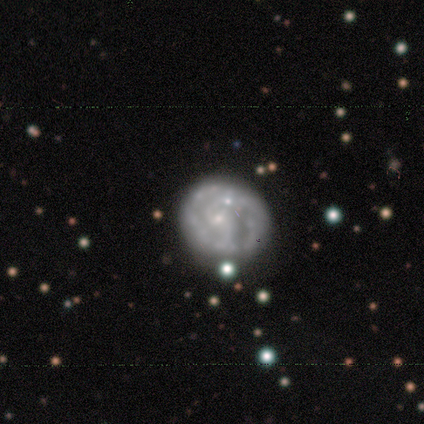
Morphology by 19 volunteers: Smooth or featured? featured or disk (100%)
Edge-on disk? no (100%)
Bar? no (58%)
Spiral arms? yes (68%)
Spiral winding? tight (62%)
Spiral arm count? 2 (62%)
Bulge size? small (53%)
Merging? none (53%)